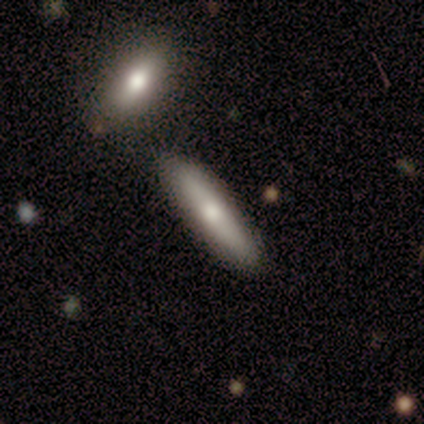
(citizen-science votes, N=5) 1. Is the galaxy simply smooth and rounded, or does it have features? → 40% smooth (tied), 40% featured or disk (tied), 20% star or artifact.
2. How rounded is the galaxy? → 100% cigar-shaped, 0% round, 0% in between.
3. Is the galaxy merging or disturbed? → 100% none, 0% minor disturbance, 0% major disturbance, 0% merger.